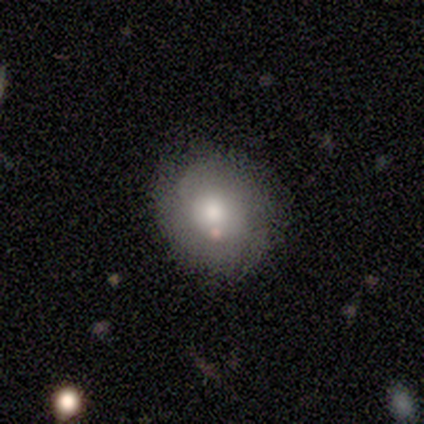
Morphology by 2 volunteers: smooth-or-featured: smooth: 50% (tied) | featured or disk: 50% (tied) | star or artifact: 0%
  how-rounded: round: 100% | in between: 0% | cigar-shaped: 0%
  merging: none: 100% | minor disturbance: 0% | major disturbance: 0% | merger: 0%